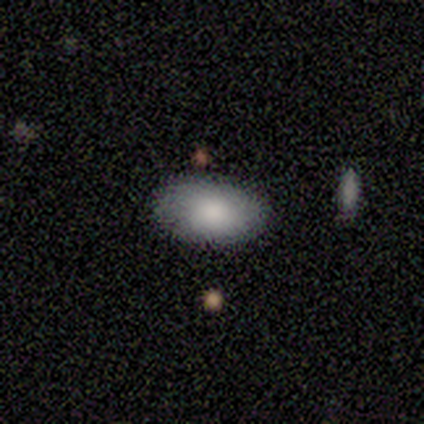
Smooth or featured? smooth (60%)
How rounded? in between (100%)
Merging? none (75%)